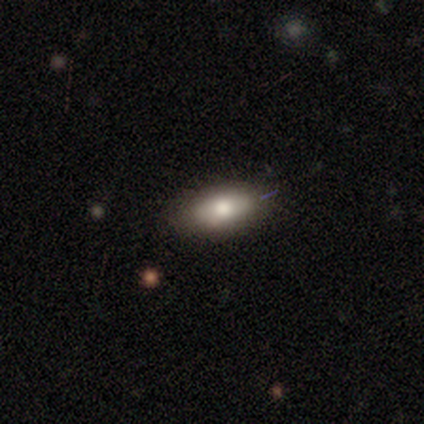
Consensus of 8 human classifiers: This is likely a smooth galaxy (75%). How rounded: clearly in between (100%). Merging: clearly none (100%).